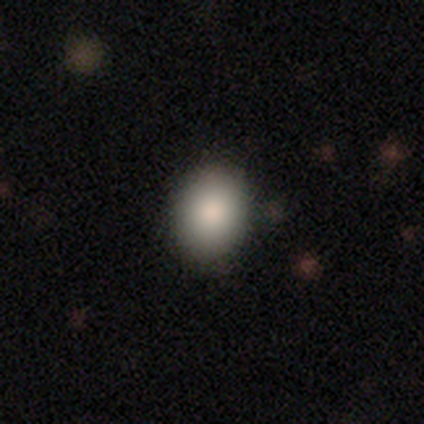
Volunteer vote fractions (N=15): This appears to be a smooth galaxy with no disk features (93%) that is round (71%). Merging: none (86%).